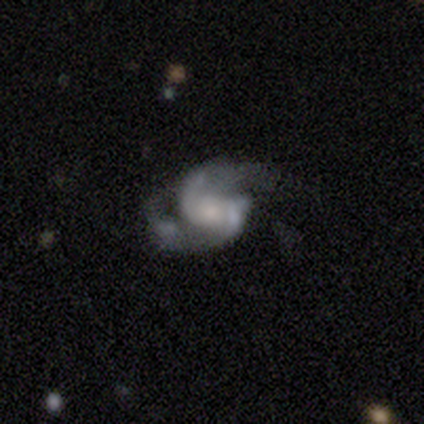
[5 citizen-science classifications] Q: Smooth or featured?
A: featured or disk (100%)
Q: Edge-on disk?
A: no (100%)
Q: Bar?
A: no (60%); runner-up: strong (20%)
Q: Spiral arms?
A: yes (100%)
Q: Spiral winding?
A: medium (80%); runner-up: tight (20%)
Q: Spiral arm count?
A: 2 (80%); runner-up: 4 (20%)
Q: Bulge size?
A: small (60%); runner-up: large (20%)
Q: Merging?
A: none (60%); runner-up: major disturbance (20%)